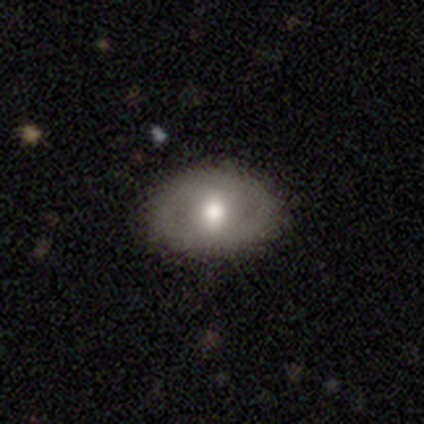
This appears to be a smooth galaxy with no disk features (57%) that is in between round and cigar-shaped (75%). Merging: none (71%).